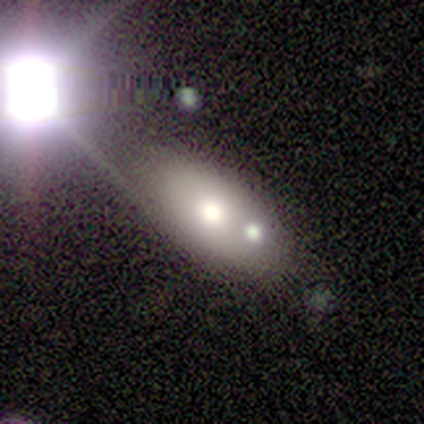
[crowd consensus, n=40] Smooth or featured? 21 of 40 (52%) said smooth. How rounded? 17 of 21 (81%) said in between. Merging? 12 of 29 (41%) said merger.